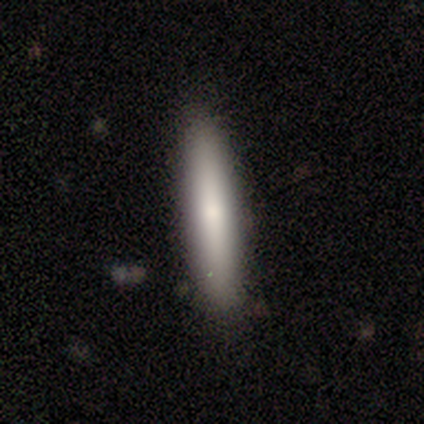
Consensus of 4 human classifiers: Smooth or featured: smooth — 75% (featured or disk — 25%)
How rounded: cigar-shaped — 67% (in between — 33%)
Merging: none — 100%